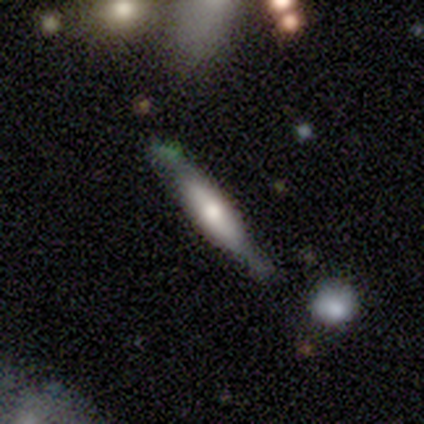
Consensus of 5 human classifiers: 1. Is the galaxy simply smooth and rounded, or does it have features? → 80% featured or disk, 20% smooth, 0% star or artifact.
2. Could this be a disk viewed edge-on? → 75% yes, 25% no.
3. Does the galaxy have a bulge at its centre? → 33% boxy (tied), 33% none (tied), 33% rounded (tied).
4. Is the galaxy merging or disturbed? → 80% none, 20% merger, 0% minor disturbance, 0% major disturbance.